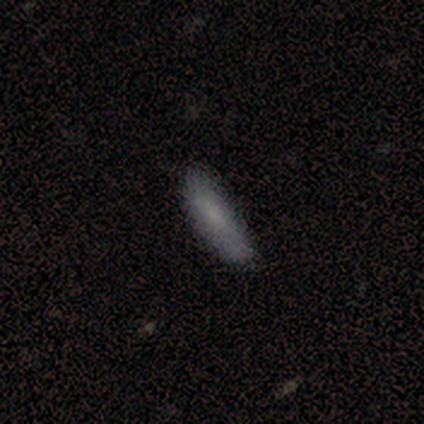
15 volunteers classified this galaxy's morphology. This appears to be a smooth galaxy with no disk features (100%) that is cigar-shaped (60%). Merging: none (80%).